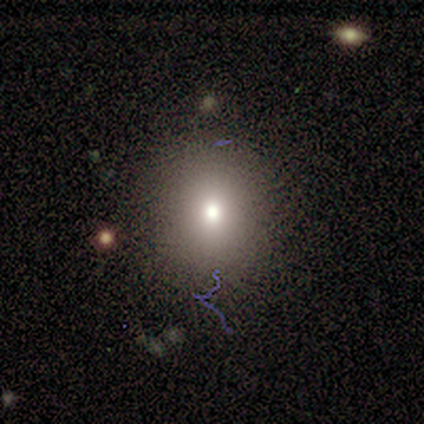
Smooth or featured? smooth (83%)
How rounded? round (100%)
Merging? none (60%)